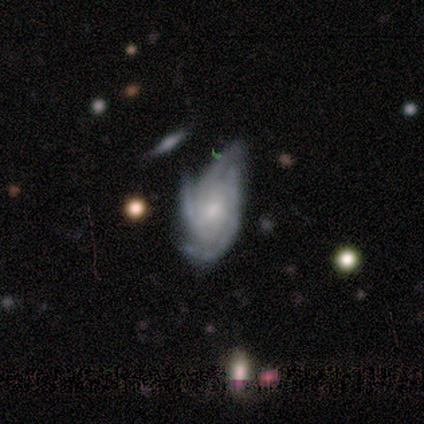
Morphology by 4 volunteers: This is clearly a featured or disk galaxy (100%). It is likely not viewed edge-on (75%). Bar: likely no (67%). Spiral arm pattern: clearly yes (100%). Spiral arm count: marginally 3 (33%, tied with 4 and can't tell). Spiral winding: clearly tight (100%). Central bulge: clearly small (100%). Merging: possibly minor disturbance (50%).